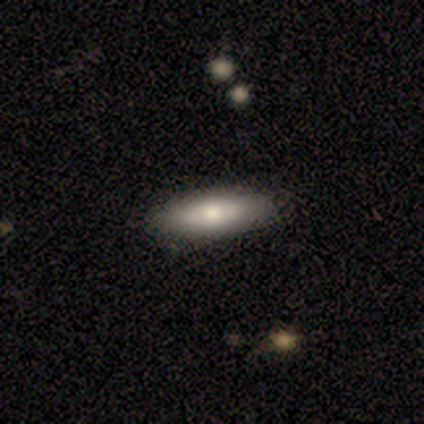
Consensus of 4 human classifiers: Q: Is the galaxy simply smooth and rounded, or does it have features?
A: smooth — 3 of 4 (75%).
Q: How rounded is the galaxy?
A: cigar-shaped — 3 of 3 (100%).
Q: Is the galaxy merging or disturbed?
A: none — 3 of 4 (75%).